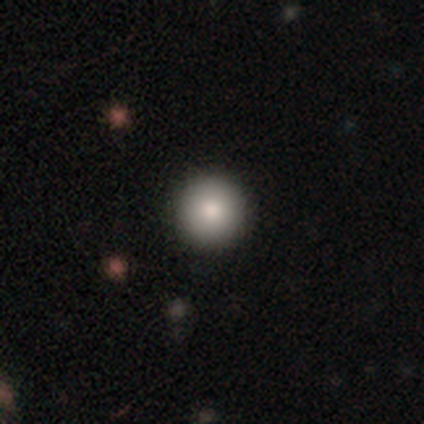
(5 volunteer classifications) Smooth or featured?
  - smooth: 60% *
  - featured or disk: 20%
  - star or artifact: 20%
How rounded?
  - round: 100% *
  - in between: 0%
  - cigar-shaped: 0%
Merging?
  - none: 100% *
  - minor disturbance: 0%
  - major disturbance: 0%
  - merger: 0%